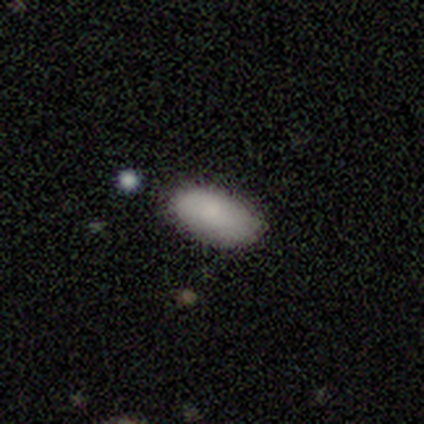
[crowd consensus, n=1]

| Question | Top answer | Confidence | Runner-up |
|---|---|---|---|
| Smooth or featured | smooth | 100% | — |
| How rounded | in between | 100% | — |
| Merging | none | 100% | — |